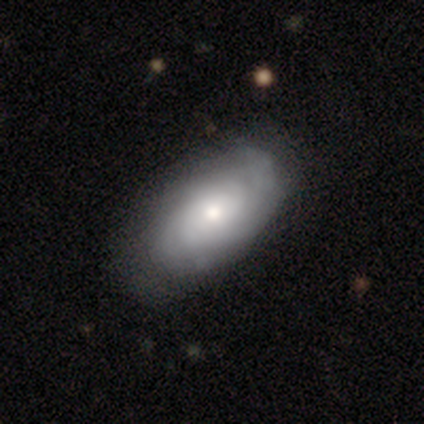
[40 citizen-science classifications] Morphology: type=featured or disk (57%); edge-on=no (96%); bar=no (95%); spiral arms=yes (64%); winding=tight (64%); arm count=can't tell (64%); bulge=moderate (55%); merging=none (69%).